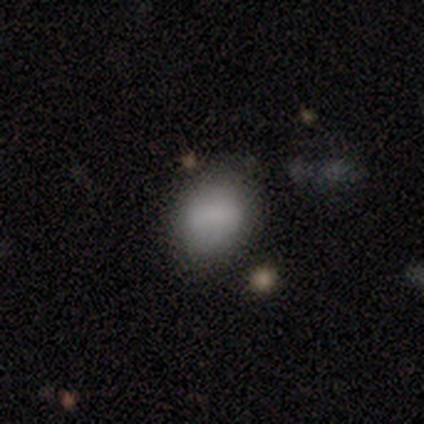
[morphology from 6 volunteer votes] Smooth or featured? smooth (100%)
How rounded? round (67%)
Merging? none (100%)